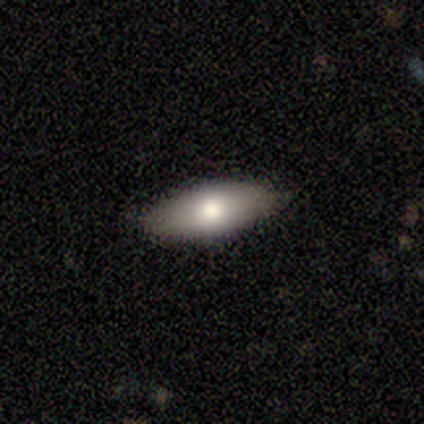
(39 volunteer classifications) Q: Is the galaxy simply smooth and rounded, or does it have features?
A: smooth — 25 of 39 (64%).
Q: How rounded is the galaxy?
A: in between — 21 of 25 (84%).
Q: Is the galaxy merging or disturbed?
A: none — 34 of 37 (92%).